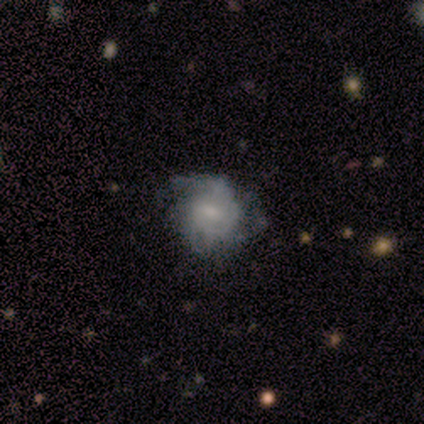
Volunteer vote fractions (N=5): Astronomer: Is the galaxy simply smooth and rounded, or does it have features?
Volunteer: featured or disk — 80%.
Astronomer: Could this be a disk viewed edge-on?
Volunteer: no — 100%.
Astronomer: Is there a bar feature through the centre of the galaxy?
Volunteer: no — 75%.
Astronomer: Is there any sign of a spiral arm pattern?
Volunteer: yes — 50%, tied with no at 50%.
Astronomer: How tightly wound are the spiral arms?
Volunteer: tight — 100%.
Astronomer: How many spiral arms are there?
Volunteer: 2 — 50%, tied with 3 at 50%.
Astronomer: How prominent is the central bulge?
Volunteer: moderate — 50%, tied with small at 50%.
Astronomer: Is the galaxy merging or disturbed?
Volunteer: none — 40%, tied with minor disturbance at 40%.